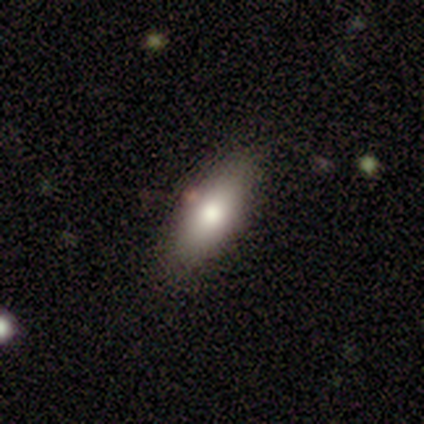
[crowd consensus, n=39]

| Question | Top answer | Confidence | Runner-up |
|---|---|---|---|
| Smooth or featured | smooth | 82% | featured or disk (13%) |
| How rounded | in between | 72% | cigar-shaped (28%) |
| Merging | none | 81% | minor disturbance (16%) |